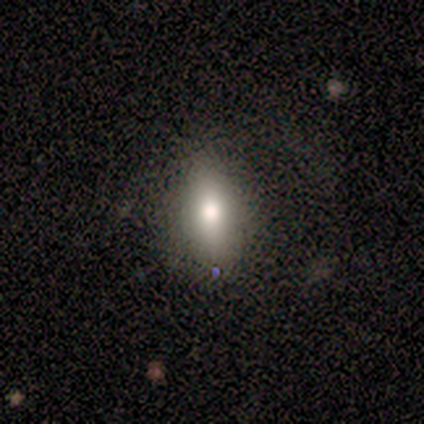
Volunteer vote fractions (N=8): Q: Smooth or featured?
A: smooth (88%); runner-up: star or artifact (12%)
Q: How rounded?
A: in between (71%); runner-up: round (29%)
Q: Merging?
A: none (100%)